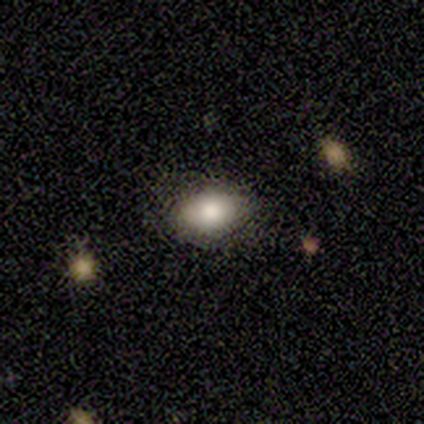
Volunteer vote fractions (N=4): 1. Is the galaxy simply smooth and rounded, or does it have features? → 75% smooth, 25% featured or disk, 0% star or artifact.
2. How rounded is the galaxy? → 100% in between, 0% round, 0% cigar-shaped.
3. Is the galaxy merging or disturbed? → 100% none, 0% minor disturbance, 0% major disturbance, 0% merger.